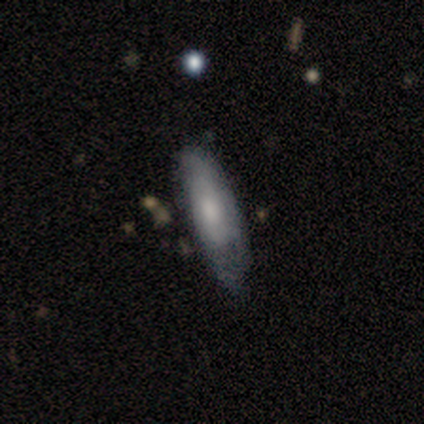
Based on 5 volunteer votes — A featured or disk galaxy (60%) with a strong bar (50%, tied with no), loose (100%) spiral arms (50%, tied with no) and a moderate central bulge (50%, tied with none).

Vote fractions:
- Smooth or featured? featured or disk: 60% / smooth: 40% / star or artifact: 0%
- Edge-on disk? no: 67% / yes: 33%
- Bar? strong: 50% (tied) / no: 50% (tied) / weak: 0%
- Spiral arms? yes: 50% (tied) / no: 50% (tied)
- Spiral winding? loose: 100% / tight: 0% / medium: 0%
- Spiral arm count? can't tell: 100% / 1: 0% / 2: 0% / 3: 0% / 4: 0% / more than 4: 0%
- Bulge size? moderate: 50% (tied) / none: 50% (tied) / dominant: 0% / large: 0% / small: 0%
- Merging? none: 60% / minor disturbance: 20% / major disturbance: 20% / merger: 0%